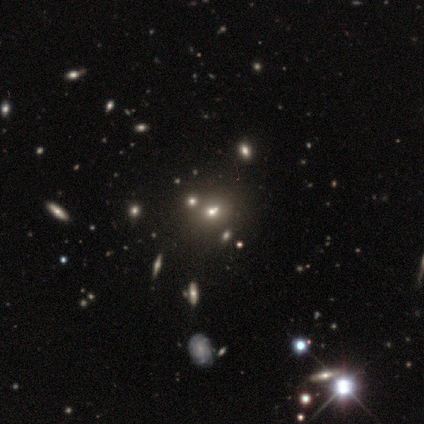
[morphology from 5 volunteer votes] Overall: star or artifact (60%; featured or disk 40%).